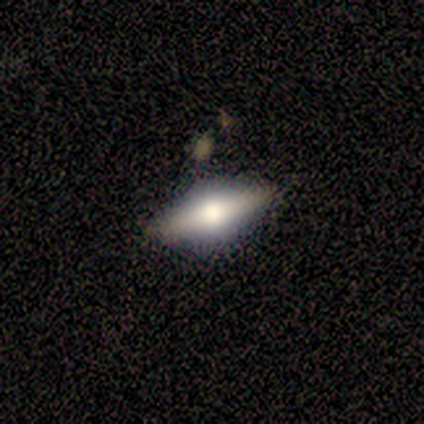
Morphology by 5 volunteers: type=featured or disk (60%); edge-on=yes (100%); edge-on bulge=rounded (100%); merging=none (80%).